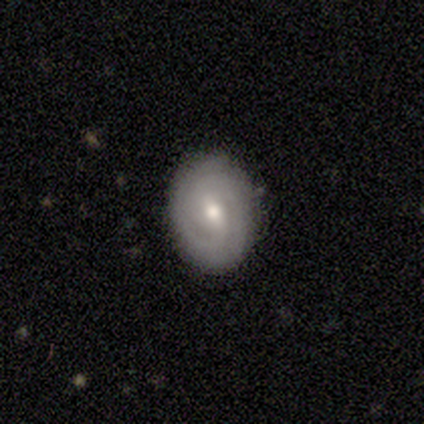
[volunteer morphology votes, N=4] Smooth or featured? smooth (50%, tied with featured or disk)
How rounded? round (50%, tied with in between)
Merging? none (100%)